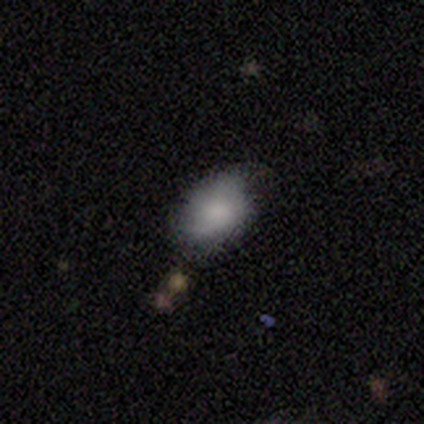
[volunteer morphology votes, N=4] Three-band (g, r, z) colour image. It shows a smooth galaxy with no disk features (100%) that is in between round and cigar-shaped (100%). Merging: none (100%).